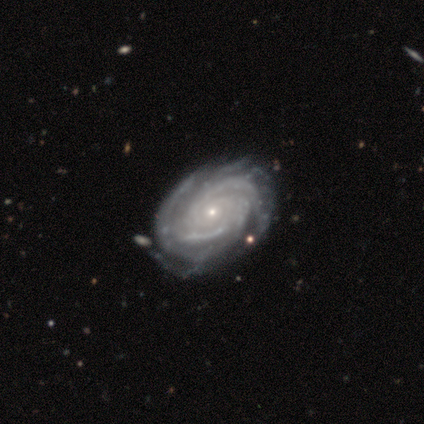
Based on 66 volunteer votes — featured or disk 94%, star or artifact 5%, smooth 2%. Down the decision tree: edge-on disk — no (100%); bar — no (79%); spiral arms — yes (98%); spiral arm count — can't tell (25%); spiral winding — tight (72%); bulge size — small (79%); merging — none (57%).